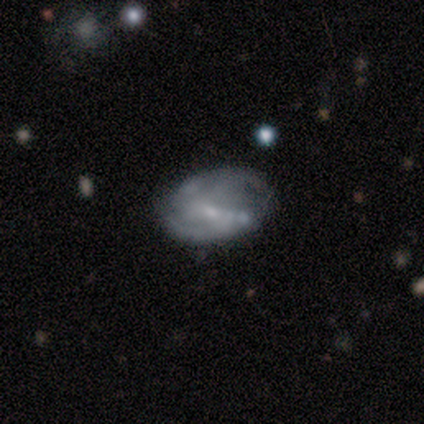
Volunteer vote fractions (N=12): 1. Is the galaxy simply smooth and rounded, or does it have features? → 83% featured or disk, 17% smooth, 0% star or artifact.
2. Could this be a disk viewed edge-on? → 100% no, 0% yes.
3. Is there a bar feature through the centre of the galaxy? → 90% weak, 10% strong, 0% no.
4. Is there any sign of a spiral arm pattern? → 90% yes, 10% no.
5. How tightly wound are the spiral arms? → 44% medium, 33% tight, 22% loose.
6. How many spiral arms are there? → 67% 2, 22% can't tell, 11% 1, 0% 3, 0% 4, 0% more than 4.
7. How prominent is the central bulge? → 80% small, 10% dominant, 10% moderate, 0% large, 0% none.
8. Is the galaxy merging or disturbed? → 42% none, 33% minor disturbance, 17% merger, 8% major disturbance.